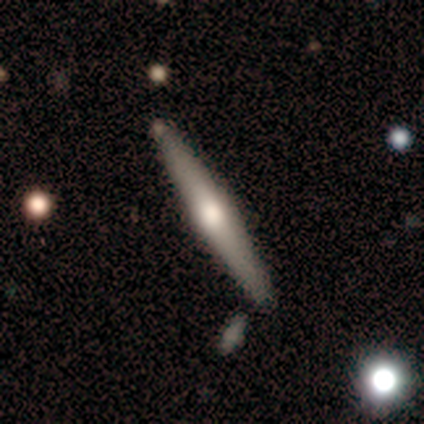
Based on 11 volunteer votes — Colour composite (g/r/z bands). It shows a featured or disk galaxy (73%) viewed edge-on (100%) with a rounded central bulge (100%). Merging: none (100%).